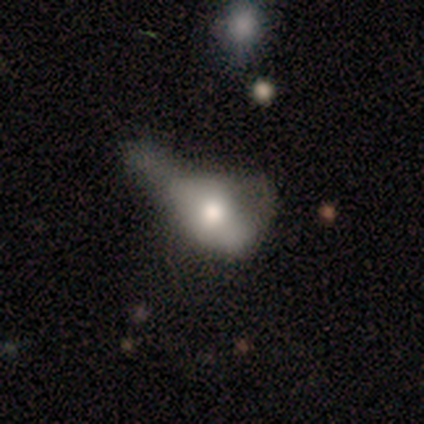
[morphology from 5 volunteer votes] Overall: smooth (60%; featured or disk 40%). How rounded: in between (100%). Merging: merger (40%; none 20%).